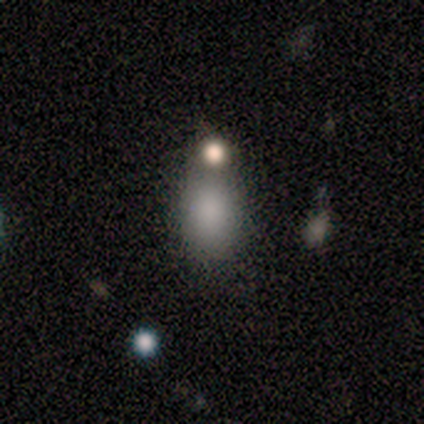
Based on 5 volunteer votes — Overall: smooth (100%). How rounded: in between (80%). Merging: none (60%; merger 40%).